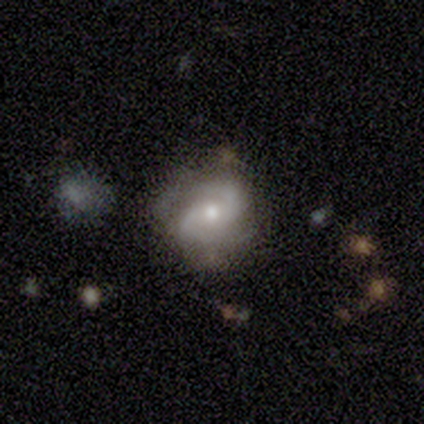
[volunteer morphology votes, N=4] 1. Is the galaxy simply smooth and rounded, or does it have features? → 100% featured or disk, 0% smooth, 0% star or artifact.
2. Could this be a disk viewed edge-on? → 100% no, 0% yes.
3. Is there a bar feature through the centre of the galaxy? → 50% weak (tied), 50% no (tied), 0% strong.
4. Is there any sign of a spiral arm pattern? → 75% yes, 25% no.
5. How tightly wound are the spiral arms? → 67% medium, 33% tight, 0% loose.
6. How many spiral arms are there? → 67% 2, 33% 4, 0% 1, 0% 3, 0% more than 4, 0% can't tell.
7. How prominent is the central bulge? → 50% moderate (tied), 50% small (tied), 0% dominant, 0% large, 0% none.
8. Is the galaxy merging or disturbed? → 100% none, 0% minor disturbance, 0% major disturbance, 0% merger.